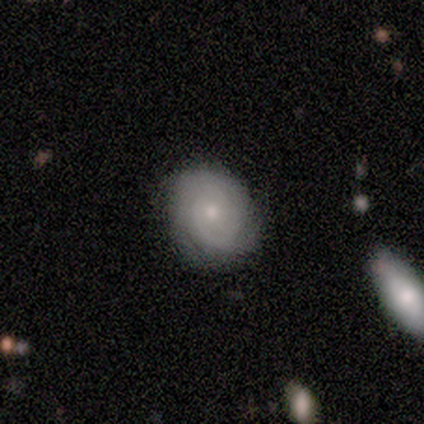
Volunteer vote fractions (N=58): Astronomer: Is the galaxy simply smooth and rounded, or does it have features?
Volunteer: featured or disk — 48% (runner-up: smooth, 38%).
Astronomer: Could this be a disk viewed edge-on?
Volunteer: no — 93%.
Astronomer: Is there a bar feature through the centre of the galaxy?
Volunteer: no — 77%.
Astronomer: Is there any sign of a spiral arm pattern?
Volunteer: yes — 81%.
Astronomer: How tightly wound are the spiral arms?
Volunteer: tight — 81%.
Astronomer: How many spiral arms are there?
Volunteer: can't tell — 43% (runner-up: 2, 29%).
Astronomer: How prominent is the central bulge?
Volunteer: small — 65%.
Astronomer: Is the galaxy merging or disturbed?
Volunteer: none — 80%.